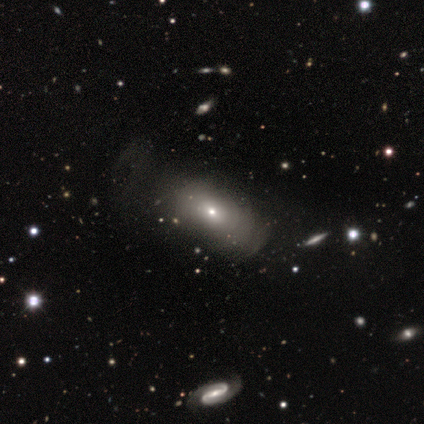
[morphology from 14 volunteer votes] This appears to be a smooth galaxy with no disk features (71%) that is in between round and cigar-shaped (100%). Merging: none (64%).